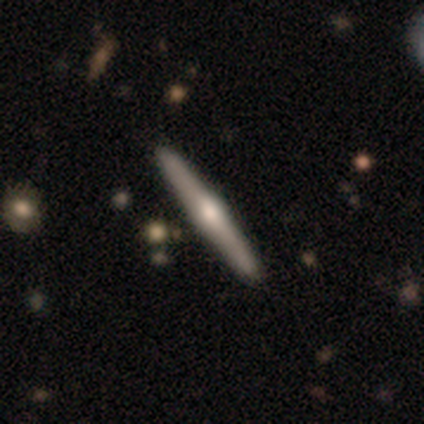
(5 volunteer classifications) This appears to be a featured or disk galaxy (60%) viewed edge-on (100%) with a rounded central bulge (67%). Merging: none (100%).